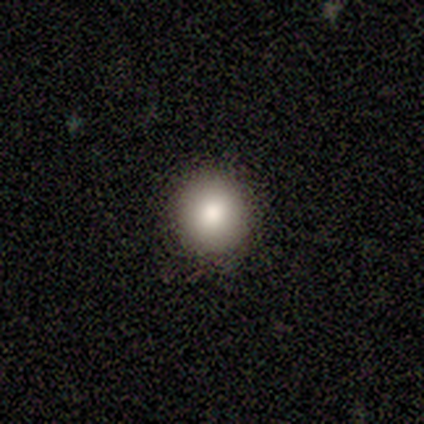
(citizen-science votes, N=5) This is clearly a smooth galaxy (100%). How rounded: clearly round (100%). Merging: clearly none (100%).